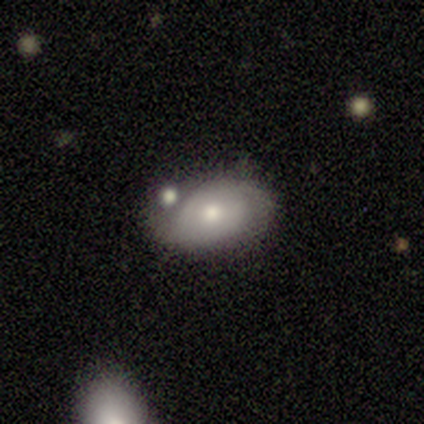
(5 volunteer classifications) Smooth or featured? 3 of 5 (60%) said featured or disk. Edge-on disk? 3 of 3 (100%) said no. Bar? 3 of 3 (100%) said no. Spiral arms? 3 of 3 (100%) said yes. Spiral winding? 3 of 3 (100%) said tight. Spiral arm count? 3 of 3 (100%) said 2. Bulge size? 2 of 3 (67%) said small. Merging? 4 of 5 (80%) said none.